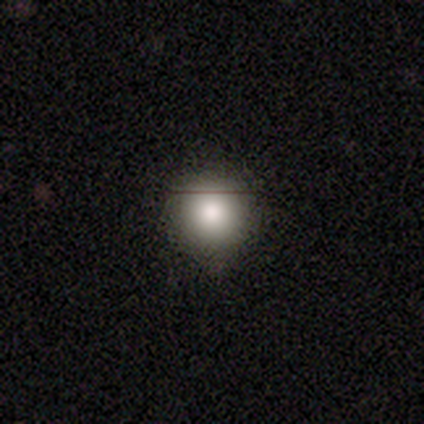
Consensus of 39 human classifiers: This is clearly a smooth galaxy (85%). How rounded: clearly round (97%). Merging: clearly none (87%).